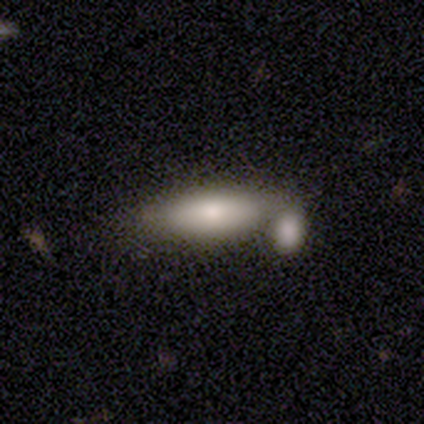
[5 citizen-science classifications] A smooth galaxy with no disk features (80%) that is cigar-shaped (75%).

Vote fractions:
- Smooth or featured? smooth: 80% / star or artifact: 20% / featured or disk: 0%
- How rounded? cigar-shaped: 75% / in between: 25% / round: 0%
- Merging? none: 50% / minor disturbance: 25% / merger: 25% / major disturbance: 0%